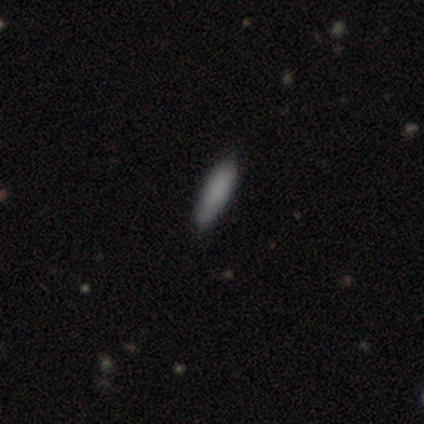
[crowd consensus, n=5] Smooth or featured? 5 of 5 (100%) said smooth. How rounded? 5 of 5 (100%) said cigar-shaped. Merging? 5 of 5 (100%) said none.